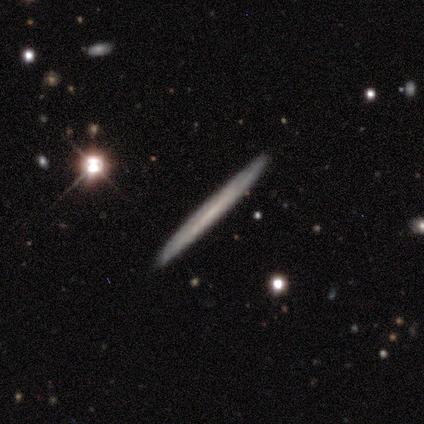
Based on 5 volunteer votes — Volunteers were most divided on "merging": none: 80%, minor disturbance: 20%, major disturbance: 0%, merger: 0%. More confident: smooth or featured — featured or disk (100%); edge-on disk — yes (100%); edge-on bulge — none (100%).